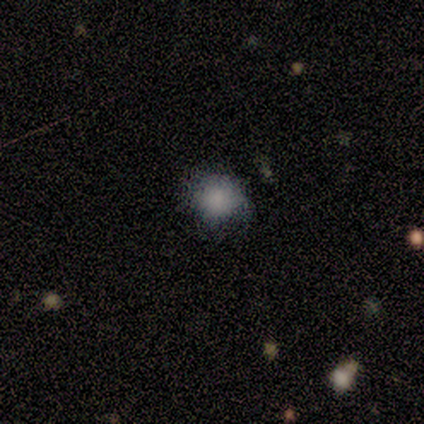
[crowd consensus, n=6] Morphology: type=smooth (50%); roundness=round (100%); merging=none (100%).